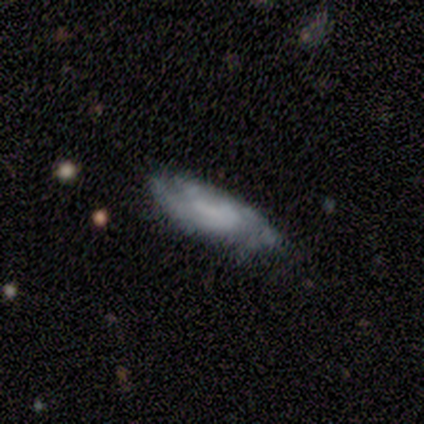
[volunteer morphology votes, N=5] smooth-or-featured: featured or disk: 100% | smooth: 0% | star or artifact: 0%
  disk-edge-on: no: 80% | yes: 20%
    bar: no: 50% | strong: 25% | weak: 25%
    has-spiral-arms: yes: 100% | no: 0%
      spiral-winding: tight: 50% (tied) | medium: 50% (tied) | loose: 0%
      spiral-arm-count: can't tell: 75% | 3: 25% | 1: 0% | 2: 0% | 4: 0% | more than 4: 0%
    bulge-size: none: 50% | large: 25% | moderate: 25% | dominant: 0% | small: 0%
  merging: minor disturbance: 60% | none: 40% | major disturbance: 0% | merger: 0%